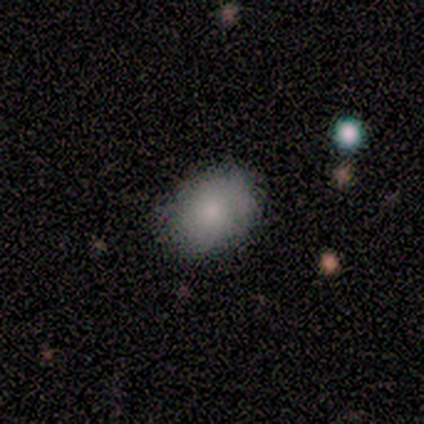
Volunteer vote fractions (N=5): This is clearly a smooth galaxy (100%). How rounded: clearly in between (100%). Merging: clearly none (80%).